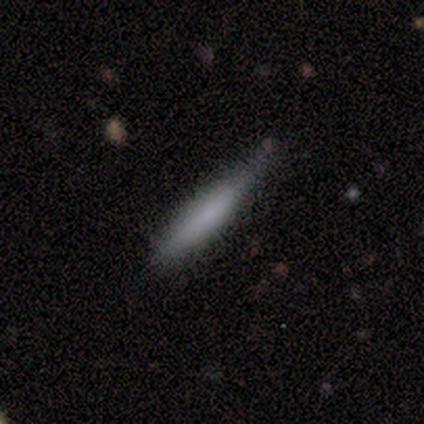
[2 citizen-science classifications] This appears to be a smooth galaxy with no disk features (100%) that is cigar-shaped (100%). Merging: none (50%, tied with minor disturbance).